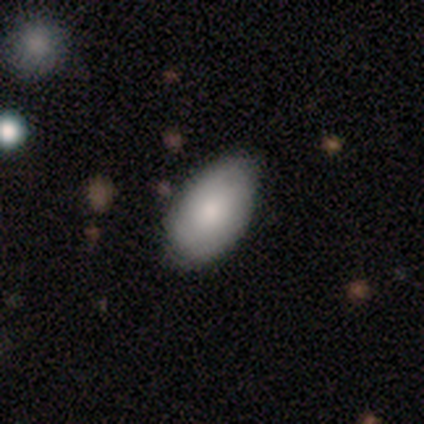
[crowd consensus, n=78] Q: Smooth or featured?
A: smooth (82%); runner-up: featured or disk (14%)
Q: How rounded?
A: in between (95%); runner-up: round (5%)
Q: Merging?
A: none (25%); runner-up: minor disturbance (20%)